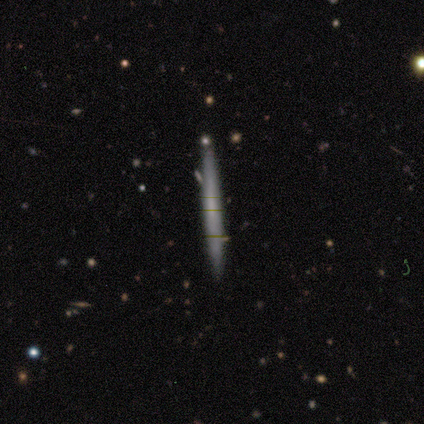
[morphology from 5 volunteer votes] Smooth or featured? smooth (60%)
How rounded? cigar-shaped (100%)
Merging? none (80%)